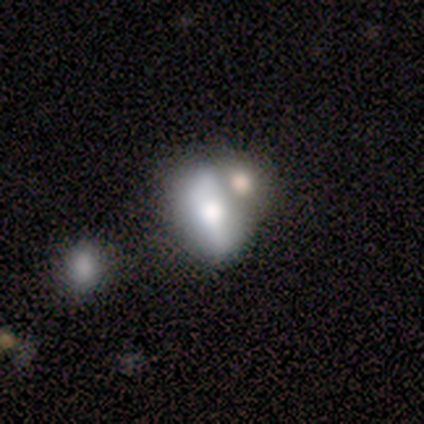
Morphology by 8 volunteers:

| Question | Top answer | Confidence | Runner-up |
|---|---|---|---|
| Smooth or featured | featured or disk | 50% | smooth (38%) |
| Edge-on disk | no | 100% | — |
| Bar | strong | 50% | tied: weak (50%) |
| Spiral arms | no | 75% | yes (25%) |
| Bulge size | moderate | 50% | large (25%) |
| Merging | merger | 57% | none (29%) |